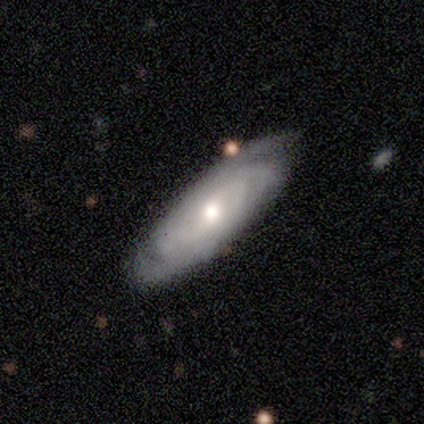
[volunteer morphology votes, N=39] This appears to be a featured or disk galaxy (69%) with no bar (73%), tight (50%) spiral arms (91%) and a moderate central bulge (68%). Merging: none (76%).